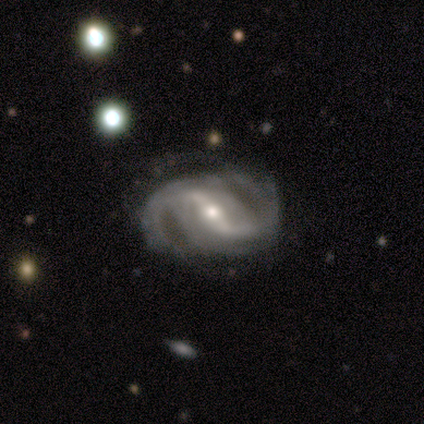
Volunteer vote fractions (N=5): featured or disk 100%, smooth 0%, star or artifact 0%. Down the decision tree: edge-on disk — no (100%); bar — strong (60%); spiral arms — yes (100%); spiral arm count — 2 (80%); spiral winding — tight (40%, tied with medium); bulge size — small (60%); merging — none (60%).